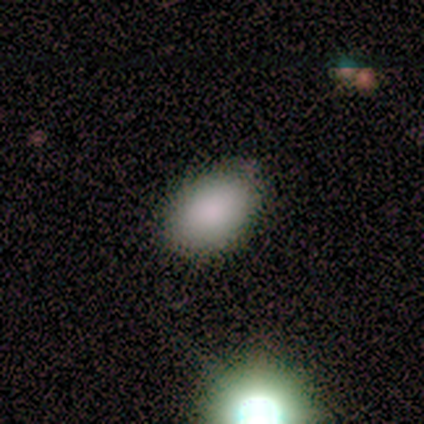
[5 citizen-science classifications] Smooth or featured? smooth (80%)
How rounded? in between (75%)
Merging? none (80%)